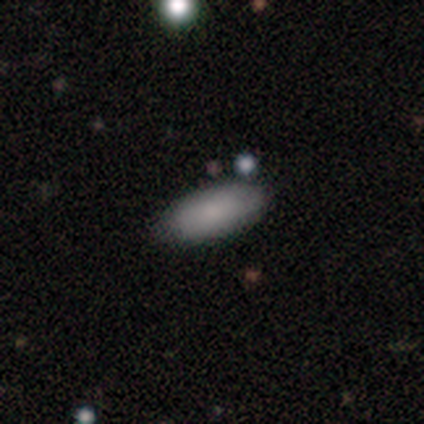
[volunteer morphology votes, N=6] type=smooth (100%); roundness=in between (100%); merging=none (100%).